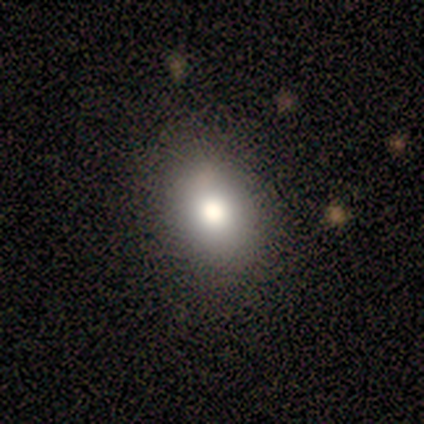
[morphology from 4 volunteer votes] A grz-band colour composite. It shows a smooth galaxy with no disk features (100%) that is in between round and cigar-shaped (75%). Merging: none (75%).